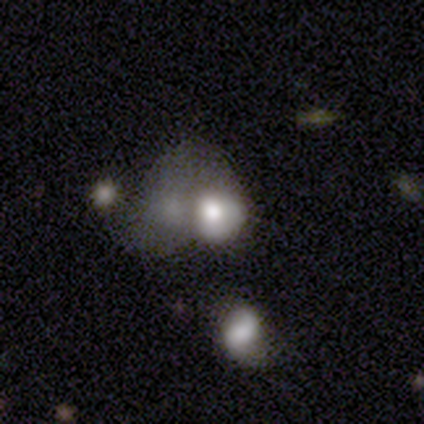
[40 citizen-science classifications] smooth_or_featured: smooth (p=0.60) [alt: featured or disk p=0.38]
how_rounded: in between (p=0.58) [alt: round p=0.38]
merging: major disturbance (p=0.38) [alt: merger p=0.33]